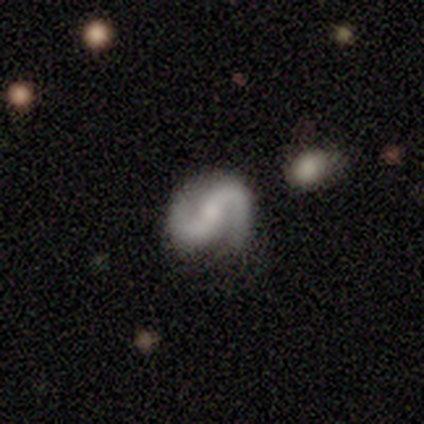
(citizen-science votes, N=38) Smooth or featured?
  - featured or disk: 84% *
  - smooth: 13%
  - star or artifact: 3%
Edge-on disk?
  - no: 100% *
  - yes: 0%
Bar?
  - no: 38% *
  - strong: 34%
  - weak: 28%
Spiral arms?
  - yes: 100% *
  - no: 0%
Spiral winding?
  - medium: 44% *
  - loose: 41%
  - tight: 16%
Spiral arm count?
  - 2: 91% *
  - 1: 3%
  - 3: 3%
  - can't tell: 3%
  - 4: 0%
  - more than 4: 0%
Bulge size?
  - small: 44% *
  - moderate: 38%
  - none: 16%
  - large: 3%
  - dominant: 0%
Merging?
  - none: 89% *
  - minor disturbance: 8%
  - major disturbance: 3%
  - merger: 0%